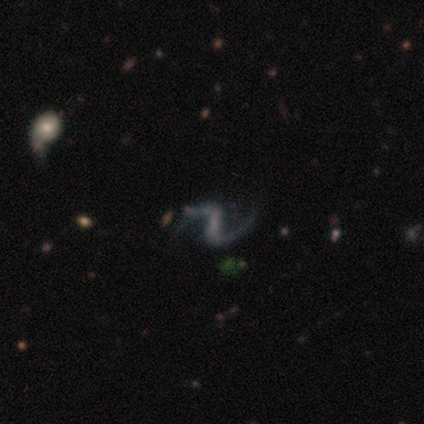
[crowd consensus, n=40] smooth_or_featured: featured or disk (p=0.80) [alt: smooth p=0.10]
disk_edge_on: no (p=1.00)
bar: strong (p=0.59) [alt: no p=0.25]
has_spiral_arms: yes (p=0.88) [alt: no p=0.12]
spiral_winding: loose (p=0.89) [alt: medium p=0.11]
spiral_arm_count: 2 (p=0.96) [alt: 1 p=0.04]
bulge_size: none (p=0.69) [alt: small p=0.22]
merging: none (p=0.67) [alt: minor disturbance p=0.22]